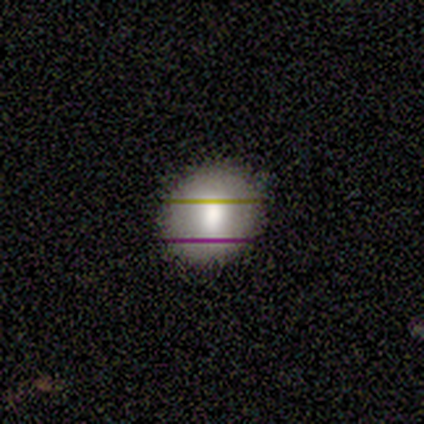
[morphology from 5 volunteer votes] Smooth or featured?
  - smooth: 100% *
  - featured or disk: 0%
  - star or artifact: 0%
How rounded?
  - round: 100% *
  - in between: 0%
  - cigar-shaped: 0%
Merging?
  - none: 100% *
  - minor disturbance: 0%
  - major disturbance: 0%
  - merger: 0%